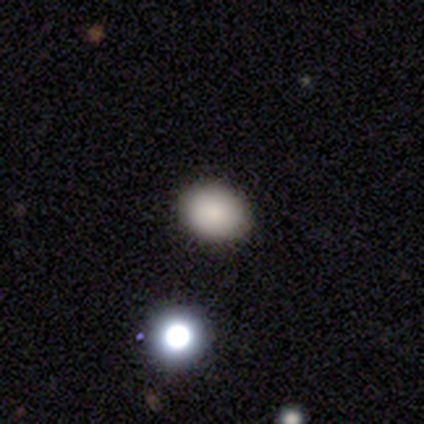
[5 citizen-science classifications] Volunteers were most divided on "how rounded": in between: 75%, round: 25%, cigar-shaped: 0%. More confident: merging — none (100%); smooth or featured — smooth (80%).